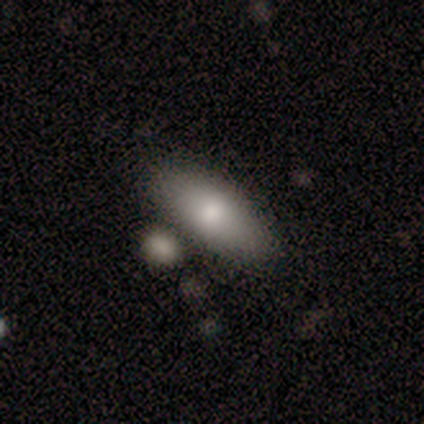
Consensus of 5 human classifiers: A smooth galaxy with no disk features (80%) that is in between round and cigar-shaped (75%). Merging: none (100%).